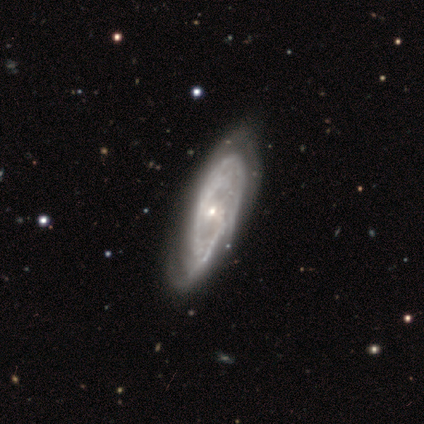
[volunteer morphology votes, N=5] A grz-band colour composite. It shows a featured or disk galaxy (60%) with a weak bar (67%), 2 (50%, tied with can't tell) tight (50%, tied with medium) spiral arms (67%) and a small central bulge (67%). Merging: none (75%).